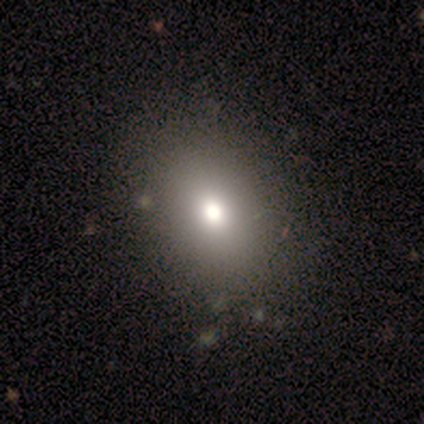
Morphology: type=smooth (80%); roundness=in between (75%); merging=none (100%).